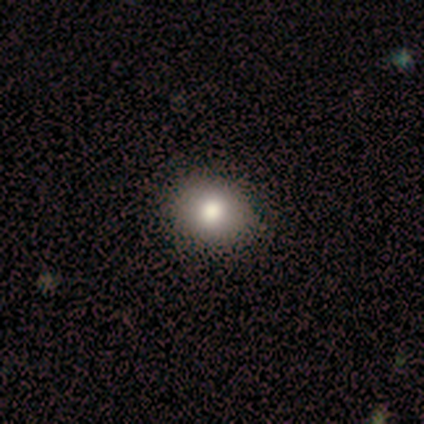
smooth-or-featured: smooth: 100% | featured or disk: 0% | star or artifact: 0%
  how-rounded: round: 80% | in between: 20% | cigar-shaped: 0%
  merging: none: 100% | minor disturbance: 0% | major disturbance: 0% | merger: 0%